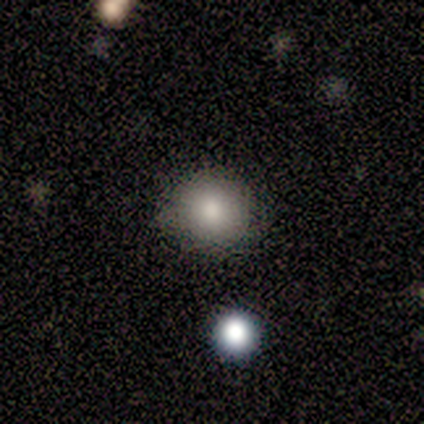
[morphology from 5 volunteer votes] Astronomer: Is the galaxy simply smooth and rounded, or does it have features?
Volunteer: smooth — 100%.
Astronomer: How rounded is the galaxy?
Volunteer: round — 100%.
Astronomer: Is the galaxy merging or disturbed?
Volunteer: none — 80%.